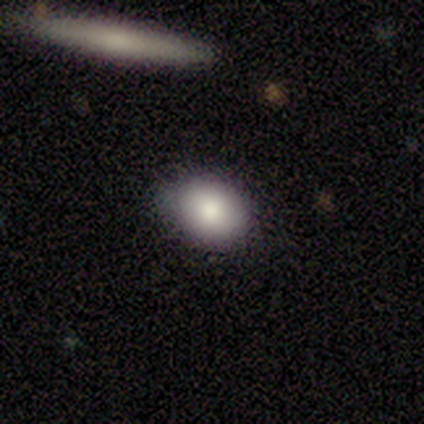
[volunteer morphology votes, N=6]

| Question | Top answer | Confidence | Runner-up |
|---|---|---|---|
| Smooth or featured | smooth | 83% | featured or disk (17%) |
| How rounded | in between | 100% | — |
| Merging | none | 100% | — |